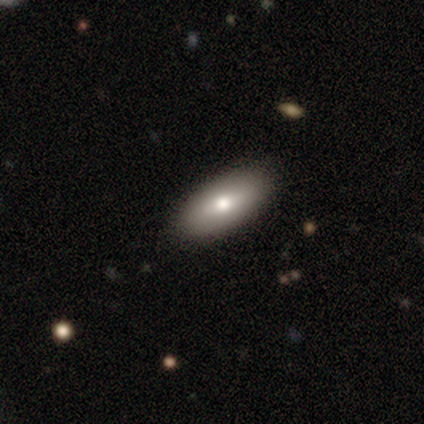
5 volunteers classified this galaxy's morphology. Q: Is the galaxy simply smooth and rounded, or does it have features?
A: smooth — 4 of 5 (80%).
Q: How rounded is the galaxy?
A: in between — 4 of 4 (100%).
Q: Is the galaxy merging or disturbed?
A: none — 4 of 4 (100%).